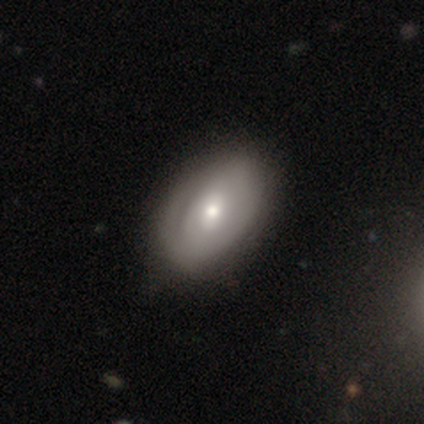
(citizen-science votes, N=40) Smooth or featured: featured or disk — 57% (smooth — 38%)
Edge-on disk: no — 96% (yes — 4%)
Bar: no — 50% (weak — 45%)
Spiral arms: yes — 64% (no — 36%)
Spiral winding: tight — 50% (medium — 43%)
Spiral arm count: can't tell — 50% (1 — 21%)
Bulge size: moderate — 50% (small — 41%)
Merging: none — 50% (minor disturbance — 16%)